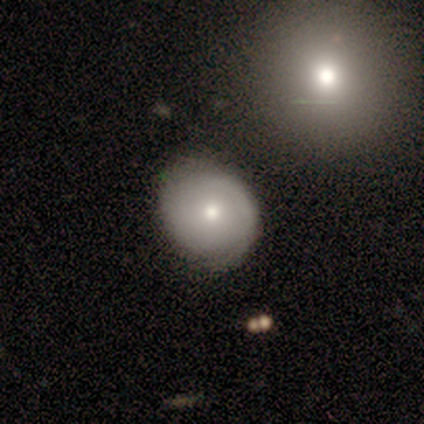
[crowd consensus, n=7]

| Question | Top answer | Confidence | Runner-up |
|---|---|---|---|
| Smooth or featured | featured or disk | 71% | smooth (29%) |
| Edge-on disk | no | 100% | — |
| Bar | no | 100% | — |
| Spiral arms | yes | 80% | no (20%) |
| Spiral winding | tight | 100% | — |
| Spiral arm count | can't tell | 75% | 2 (25%) |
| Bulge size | moderate | 60% | small (40%) |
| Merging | none | 57% | minor disturbance (43%) |